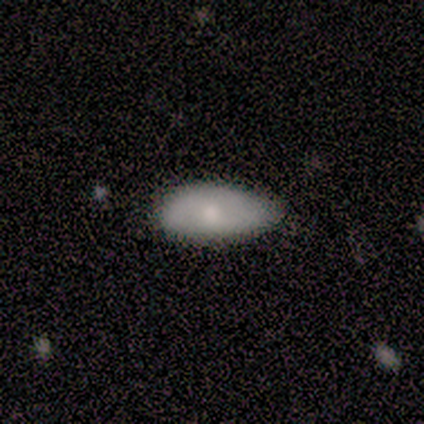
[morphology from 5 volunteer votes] This appears to be a smooth galaxy with no disk features (60%) that is in between round and cigar-shaped (67%). Merging: none (100%).